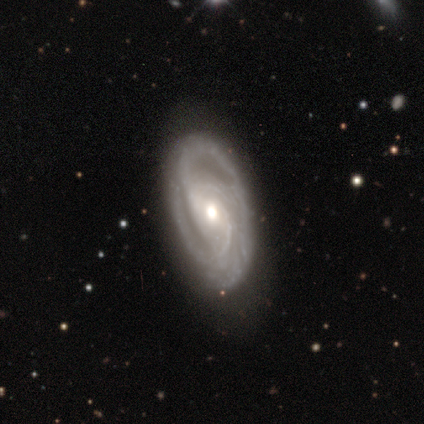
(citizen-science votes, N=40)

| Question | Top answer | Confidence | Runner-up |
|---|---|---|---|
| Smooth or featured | featured or disk | 85% | smooth (15%) |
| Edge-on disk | no | 91% | yes (9%) |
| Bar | weak | 48% | no (39%) |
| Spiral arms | yes | 97% | no (3%) |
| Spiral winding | tight | 57% | medium (40%) |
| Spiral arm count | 2 | 43% | 3 (37%) |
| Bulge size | moderate | 74% | small (16%) |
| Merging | none | 70% | minor disturbance (20%) |